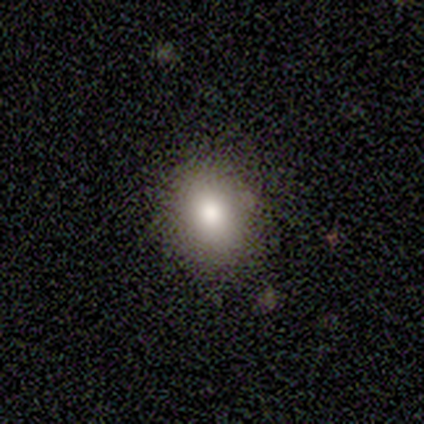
Morphology: type=smooth (85%); roundness=round (52%); merging=none (81%).